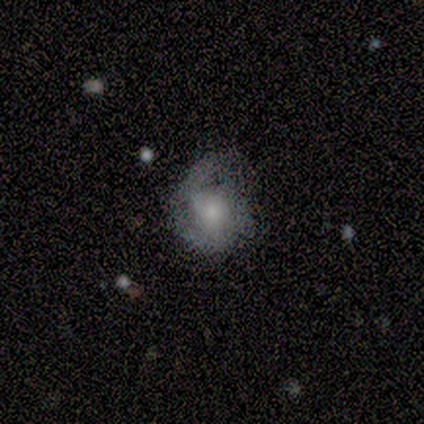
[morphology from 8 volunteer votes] Smooth or featured? 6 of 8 (75%) said featured or disk. Edge-on disk? 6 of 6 (100%) said no. Bar? 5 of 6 (83%) said no. Spiral arms? 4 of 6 (67%) said yes. Spiral winding? 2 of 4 (50%, tied with medium) said tight. Spiral arm count? 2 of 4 (50%, tied with 2) said 1. Bulge size? 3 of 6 (50%) said large. Merging? 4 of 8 (50%) said major disturbance.